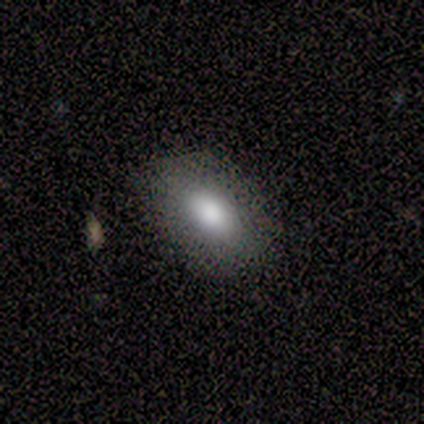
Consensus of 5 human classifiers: Consensus on every question: smooth or featured — smooth (100%); how rounded — in between (100%); merging — none (100%).